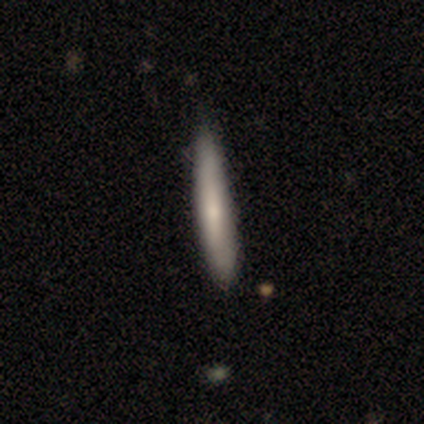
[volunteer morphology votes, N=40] A smooth galaxy with no disk features (62%) that is cigar-shaped (92%).

Vote fractions:
- Smooth or featured? smooth: 62% / featured or disk: 35% / star or artifact: 2%
- How rounded? cigar-shaped: 92% / round: 4% / in between: 4%
- Merging? none: 67% / minor disturbance: 8% / major disturbance: 3% / merger: 3%